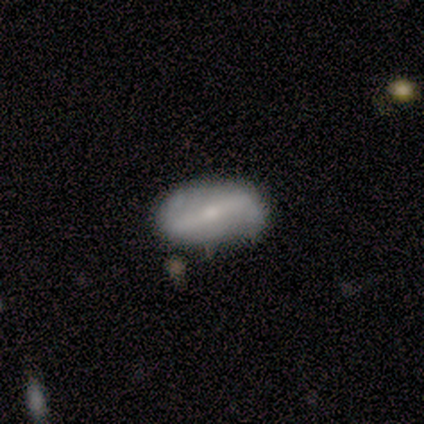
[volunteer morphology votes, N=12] type=featured or disk (58%); edge-on=no (86%); bar=strong (67%); spiral arms=yes (67%); winding=tight (50%); arm count=2 (75%); bulge=moderate (50%, tied with small); merging=none (90%).